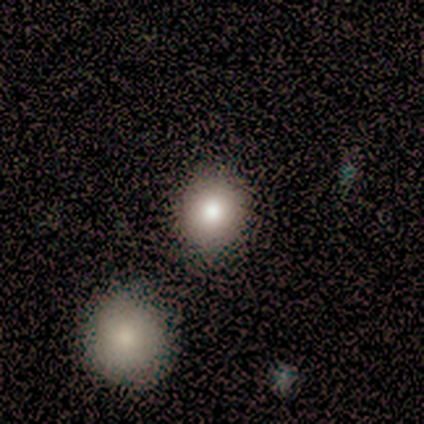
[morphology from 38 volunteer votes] smooth_or_featured: smooth (p=0.84) [alt: featured or disk p=0.13]
how_rounded: round (p=0.94) [alt: in between p=0.06]
merging: none (p=0.62) [alt: merger p=0.14]